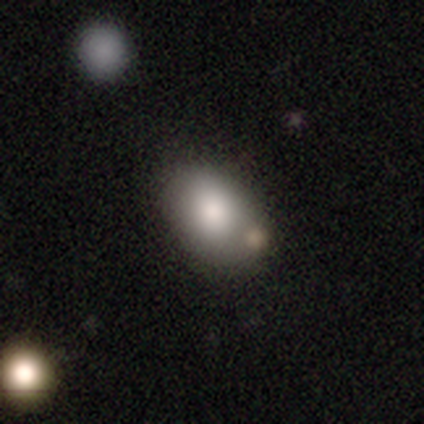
Volunteers were most divided on "how rounded" (2-way tie): round: 50%, in between: 50%, cigar-shaped: 0%. More confident: merging — none (100%); smooth or featured — smooth (50%).